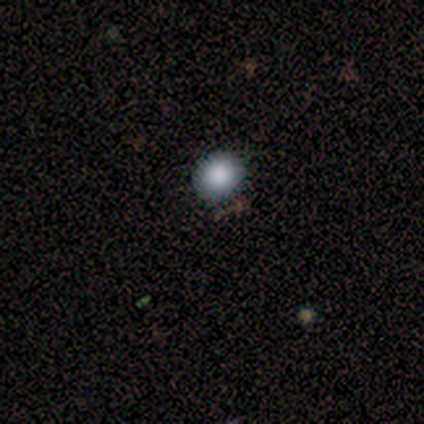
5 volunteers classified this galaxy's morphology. Smooth or featured?
  - smooth: 80% *
  - featured or disk: 20%
  - star or artifact: 0%
How rounded?
  - round: 75% *
  - in between: 25%
  - cigar-shaped: 0%
Merging?
  - none: 100% *
  - minor disturbance: 0%
  - major disturbance: 0%
  - merger: 0%